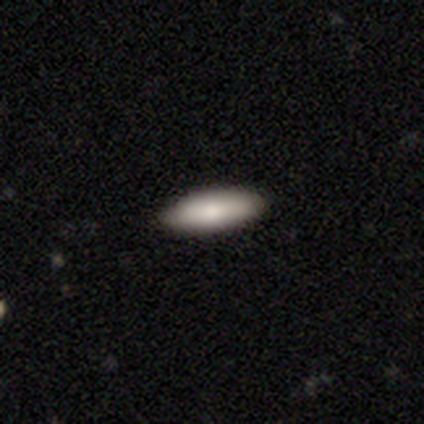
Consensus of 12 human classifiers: Volunteers were most divided on "how rounded": in between: 82%, cigar-shaped: 18%, round: 0%. More confident: smooth or featured — smooth (92%); merging — none (91%).